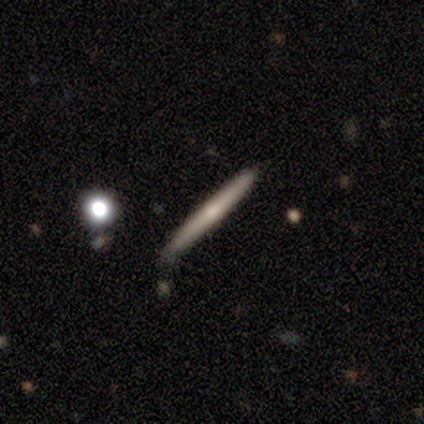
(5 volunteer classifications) A smooth galaxy with no disk features (60%) that is cigar-shaped (100%).

Vote fractions:
- Smooth or featured? smooth: 60% / featured or disk: 40% / star or artifact: 0%
- How rounded? cigar-shaped: 100% / round: 0% / in between: 0%
- Merging? none: 100% / minor disturbance: 0% / major disturbance: 0% / merger: 0%